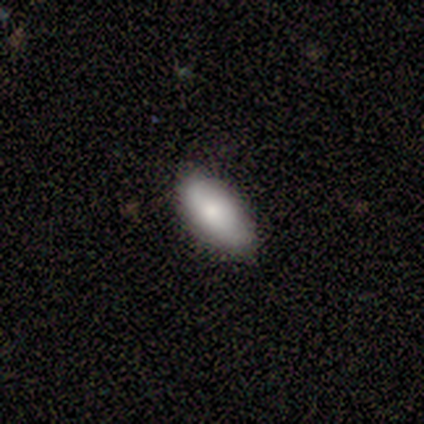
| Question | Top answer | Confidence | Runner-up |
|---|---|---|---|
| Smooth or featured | smooth | 75% | featured or disk (25%) |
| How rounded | in between | 100% | — |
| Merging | none | 50% | tied: minor disturbance (50%) |